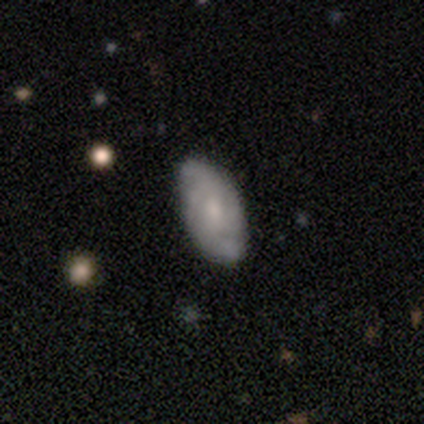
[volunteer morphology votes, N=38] A featured or disk galaxy (58%) with no bar (57%), medium (47%) spiral arms (81%) and a small central bulge (48%).

Vote fractions:
- Smooth or featured? featured or disk: 58% / smooth: 37% / star or artifact: 5%
- Edge-on disk? no: 95% / yes: 5%
- Bar? no: 57% / weak: 38% / strong: 5%
- Spiral arms? yes: 81% / no: 19%
- Spiral winding? medium: 47% / tight: 29% / loose: 24%
- Spiral arm count? can't tell: 47% / 2: 29% / 4: 18% / 3: 6% / 1: 0% / more than 4: 0%
- Bulge size? small: 48% / moderate: 38% / none: 14% / dominant: 0% / large: 0%
- Merging? none: 83% / minor disturbance: 14% / major disturbance: 3% / merger: 0%